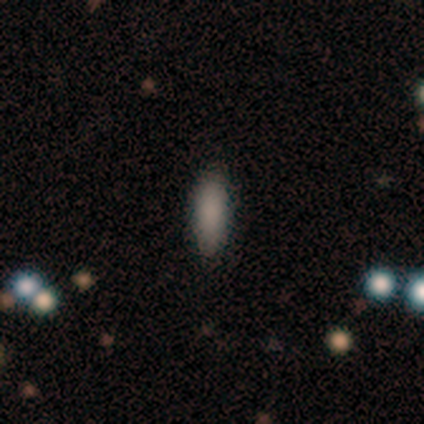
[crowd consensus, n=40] Smooth or featured? smooth (88%)
How rounded? in between (51%)
Merging? none (75%)